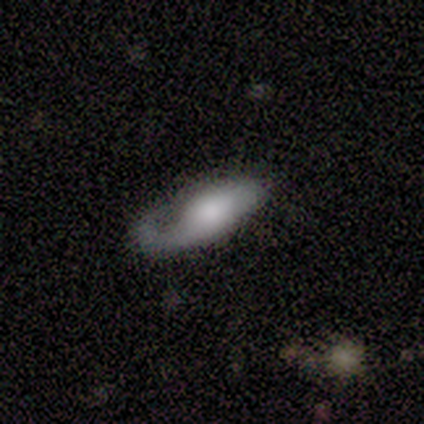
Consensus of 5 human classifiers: smooth_or_featured: featured or disk (p=0.60) [alt: smooth p=0.40]
disk_edge_on: yes (p=0.67) [alt: no p=0.33]
edge_on_bulge: rounded (p=1.00)
merging: none (p=0.40) [tied with: major disturbance p=0.40]